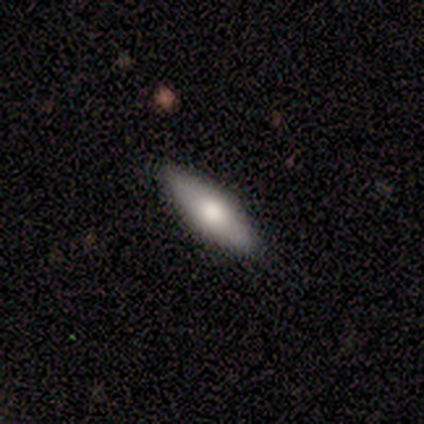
Q: Smooth or featured?
A: smooth (62%); runner-up: featured or disk (38%)
Q: How rounded?
A: in between (60%); runner-up: cigar-shaped (40%)
Q: Merging?
A: none (88%); runner-up: minor disturbance (12%)